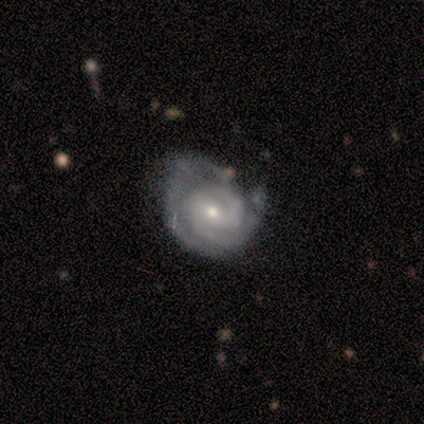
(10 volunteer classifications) Smooth or featured? 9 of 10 (90%) said featured or disk. Edge-on disk? 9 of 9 (100%) said no. Bar? 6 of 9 (67%) said weak. Spiral arms? 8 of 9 (89%) said yes. Spiral winding? 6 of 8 (75%) said tight. Spiral arm count? 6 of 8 (75%) said 2. Bulge size? 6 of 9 (67%) said small. Merging? 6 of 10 (60%) said minor disturbance.